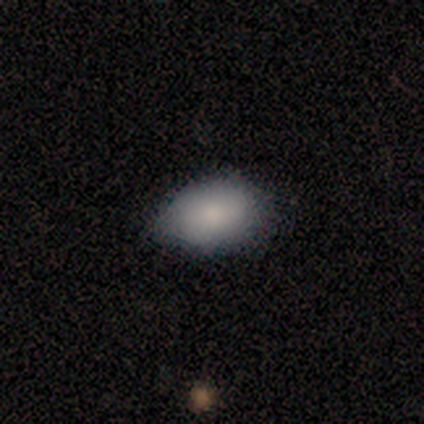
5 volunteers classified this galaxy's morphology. smooth_or_featured: smooth (p=0.80) [alt: featured or disk p=0.20]
how_rounded: in between (p=1.00)
merging: none (p=0.40) [tied with: minor disturbance p=0.40]